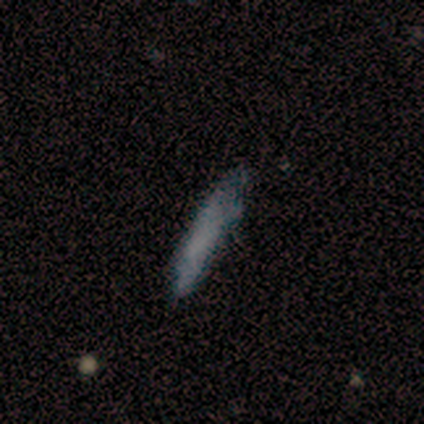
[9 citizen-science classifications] smooth_or_featured: smooth (p=0.67) [alt: featured or disk p=0.33]
how_rounded: cigar-shaped (p=0.83) [alt: in between p=0.17]
merging: none (p=0.78) [alt: major disturbance p=0.22]